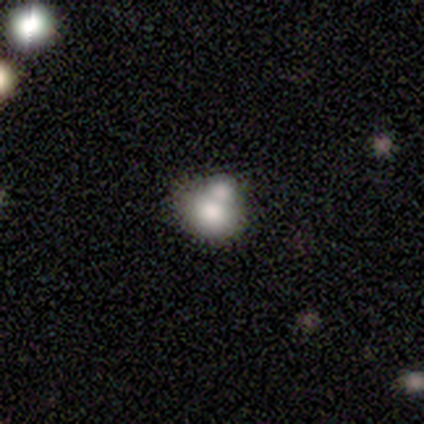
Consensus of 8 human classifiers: Smooth or featured?
  - smooth: 62% *
  - featured or disk: 25%
  - star or artifact: 12%
How rounded?
  - round: 60% *
  - in between: 40%
  - cigar-shaped: 0%
Merging?
  - merger: 100% *
  - none: 0%
  - minor disturbance: 0%
  - major disturbance: 0%